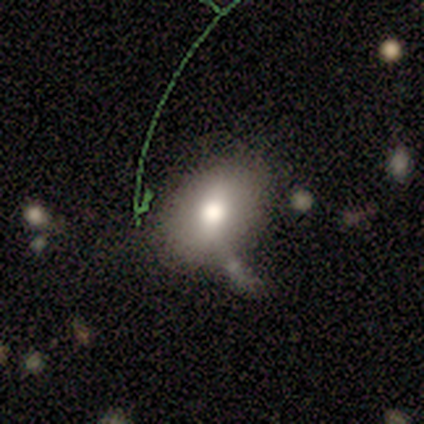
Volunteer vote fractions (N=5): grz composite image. It shows a smooth galaxy with no disk features (100%) that is in between round and cigar-shaped (100%). Merging: none (40%, tied with minor disturbance).